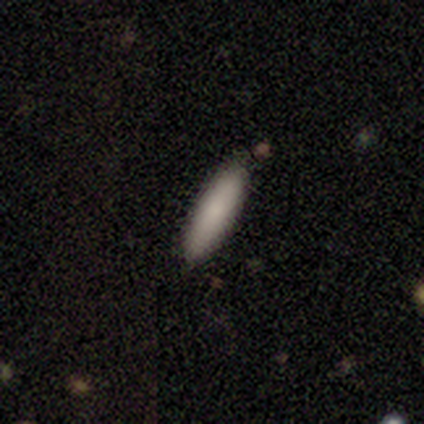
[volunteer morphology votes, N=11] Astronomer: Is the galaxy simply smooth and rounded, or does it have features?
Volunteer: smooth — 91%.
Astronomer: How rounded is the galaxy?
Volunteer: in between — 50%, tied with cigar-shaped at 50%.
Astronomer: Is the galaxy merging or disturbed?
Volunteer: none — 91%.